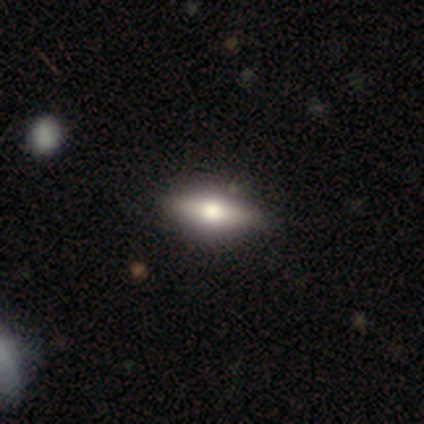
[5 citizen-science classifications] This is clearly a smooth galaxy (80%). How rounded: possibly in between (50%, tied with cigar-shaped). Merging: clearly none (100%).